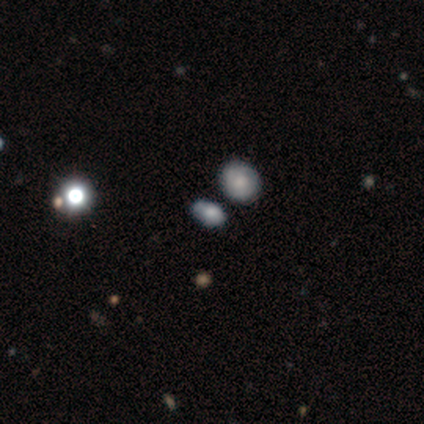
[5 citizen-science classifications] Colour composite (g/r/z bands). It shows a smooth galaxy with no disk features (60%) that is in between round and cigar-shaped (100%). Merging: minor disturbance (60%).